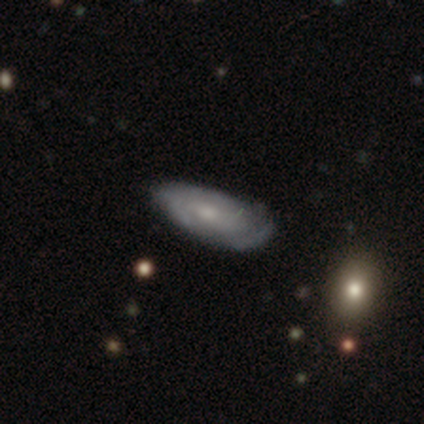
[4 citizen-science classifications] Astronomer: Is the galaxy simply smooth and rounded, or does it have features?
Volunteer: featured or disk — 75%.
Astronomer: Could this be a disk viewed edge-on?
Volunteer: no — 100%.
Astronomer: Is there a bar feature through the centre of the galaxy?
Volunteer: no — 67%.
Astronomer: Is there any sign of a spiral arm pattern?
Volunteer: yes — 67%.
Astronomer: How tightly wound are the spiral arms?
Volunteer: tight — 50%, tied with medium at 50%.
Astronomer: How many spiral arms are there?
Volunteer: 2 — 50%, tied with 3 at 50%.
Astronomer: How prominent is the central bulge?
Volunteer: small — 67%.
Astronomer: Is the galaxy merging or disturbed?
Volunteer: none — 50%, tied with minor disturbance at 50%.